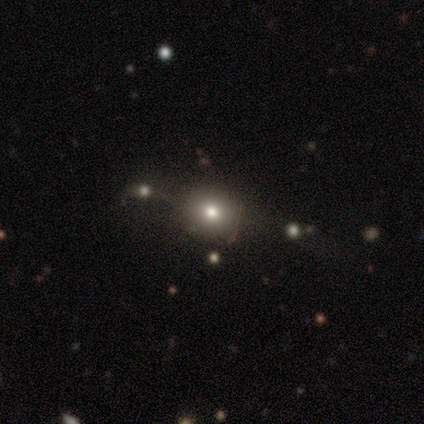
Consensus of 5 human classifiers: Smooth or featured? smooth (80%)
How rounded? round (75%)
Merging? minor disturbance (60%)